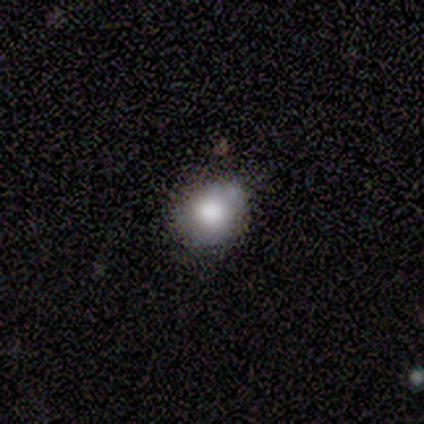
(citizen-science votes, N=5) Smooth or featured: smooth — 60% (featured or disk — 20%)
How rounded: round — 100%
Merging: none — 100%